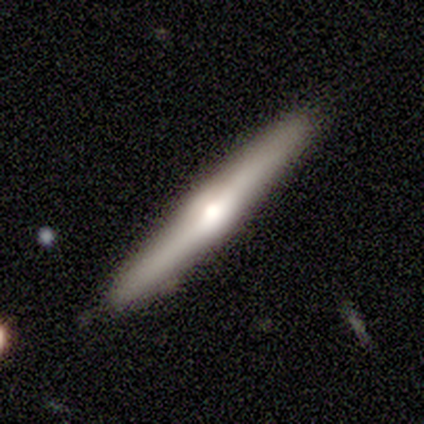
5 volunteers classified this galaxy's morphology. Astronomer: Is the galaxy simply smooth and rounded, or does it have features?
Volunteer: featured or disk — 60% (runner-up: smooth, 40%).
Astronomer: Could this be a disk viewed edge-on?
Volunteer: yes — 100%.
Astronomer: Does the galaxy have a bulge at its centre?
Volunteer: rounded — 100%.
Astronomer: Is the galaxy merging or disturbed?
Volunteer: none — 100%.